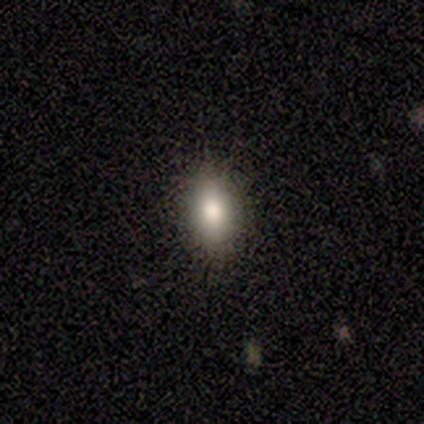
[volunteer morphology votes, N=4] smooth 100%, featured or disk 0%, star or artifact 0%. Down the decision tree: how rounded — in between (100%); merging — none (100%).